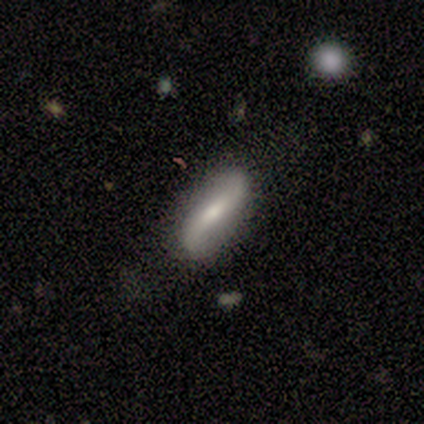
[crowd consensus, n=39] featured or disk 59%, smooth 36%, star or artifact 5%. Down the decision tree: edge-on disk — no (83%); bar — weak (63%); spiral arms — yes (100%); spiral arm count — 2 (84%); spiral winding — loose (79%); bulge size — moderate (58%); merging — none (81%).